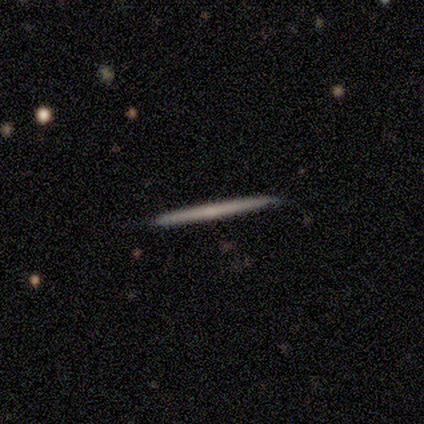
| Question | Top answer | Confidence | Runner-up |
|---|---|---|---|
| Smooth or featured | smooth | 60% | featured or disk (40%) |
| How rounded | cigar-shaped | 100% | — |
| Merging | none | 80% | minor disturbance (20%) |